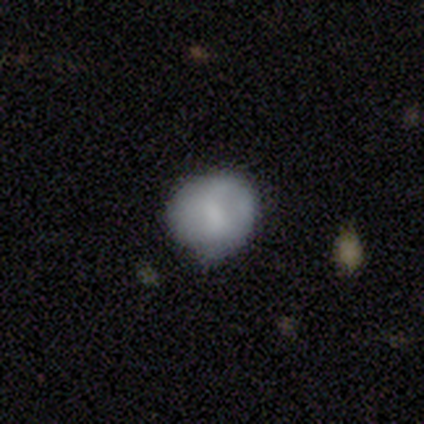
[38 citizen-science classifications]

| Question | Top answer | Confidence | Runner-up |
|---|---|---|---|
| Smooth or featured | smooth | 76% | featured or disk (16%) |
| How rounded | round | 83% | in between (17%) |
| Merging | none | 63% | minor disturbance (31%) |